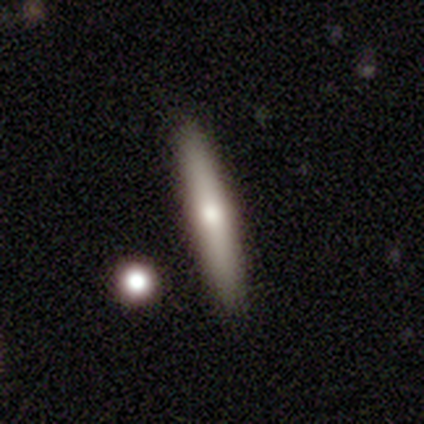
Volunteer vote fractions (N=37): smooth_or_featured: smooth (p=0.59) [alt: featured or disk p=0.32]
how_rounded: cigar-shaped (p=0.95) [alt: in between p=0.05]
merging: none (p=0.82) [alt: minor disturbance p=0.09]